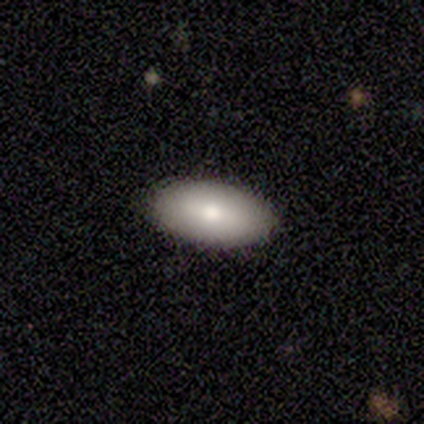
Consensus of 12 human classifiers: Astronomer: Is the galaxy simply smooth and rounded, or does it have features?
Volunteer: smooth — 83%.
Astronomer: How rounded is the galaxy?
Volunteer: in between — 90%.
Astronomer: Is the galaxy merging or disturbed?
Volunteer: none — 82%.